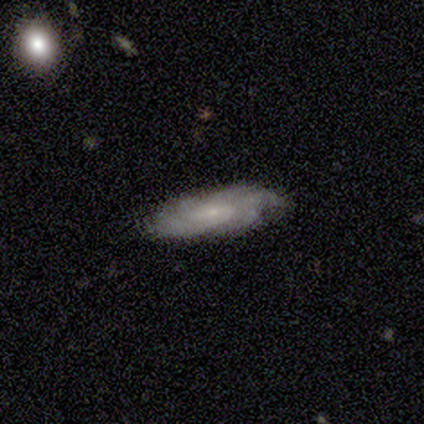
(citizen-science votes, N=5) smooth_or_featured: featured or disk (p=1.00)
disk_edge_on: no (p=1.00)
bar: no (p=0.60) [alt: strong p=0.20]
has_spiral_arms: yes (p=1.00)
spiral_winding: tight (p=0.80) [alt: medium p=0.20]
spiral_arm_count: 4 (p=0.40) [tied with: can't tell p=0.40]
bulge_size: small (p=0.40) [tied with: none p=0.40]
merging: none (p=1.00)